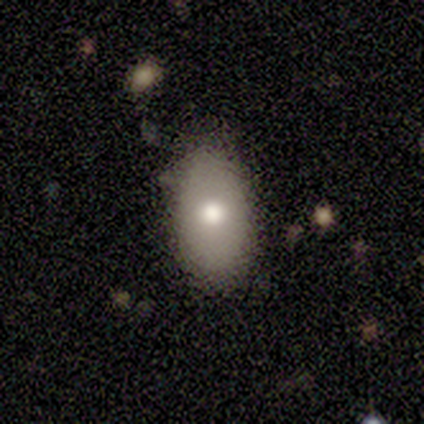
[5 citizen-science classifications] Smooth or featured? smooth (80%)
How rounded? in between (100%)
Merging? none (80%)